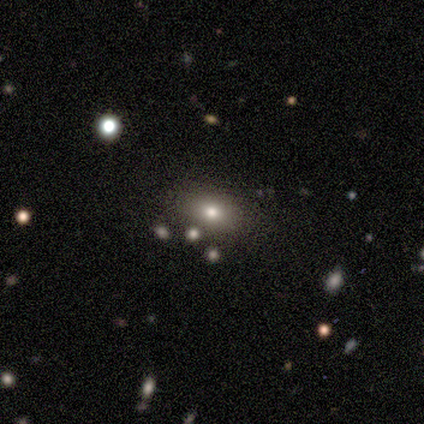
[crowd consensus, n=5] smooth_or_featured: smooth (p=0.60) [alt: featured or disk p=0.20]
how_rounded: in between (p=0.67) [alt: round p=0.33]
merging: none (p=0.75) [alt: minor disturbance p=0.25]